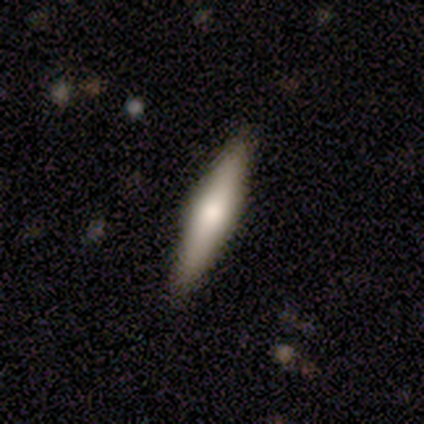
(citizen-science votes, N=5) Q: Smooth or featured?
A: smooth (60%); runner-up: featured or disk (40%)
Q: How rounded?
A: cigar-shaped (100%)
Q: Merging?
A: none (80%); runner-up: minor disturbance (20%)